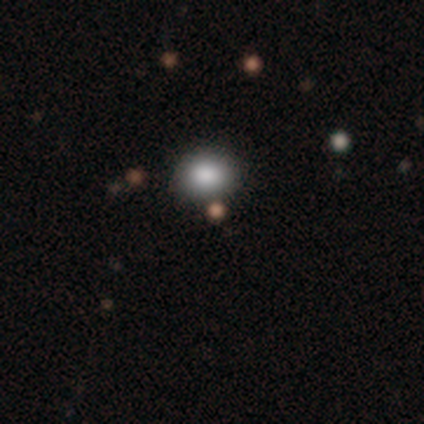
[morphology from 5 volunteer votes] This is marginally a smooth galaxy (40%, tied with star or artifact). How rounded: possibly round (50%, tied with in between). Merging: likely none (67%).